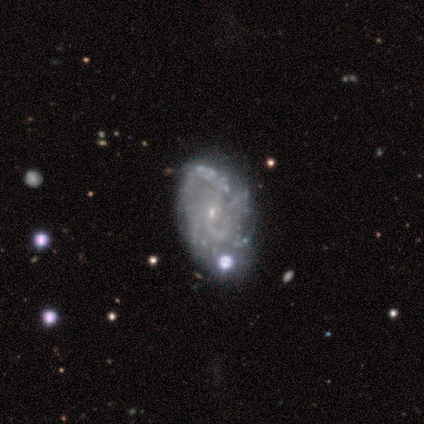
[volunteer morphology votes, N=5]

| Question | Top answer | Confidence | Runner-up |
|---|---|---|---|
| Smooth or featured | featured or disk | 100% | — |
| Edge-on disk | no | 100% | — |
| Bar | no | 60% | weak (40%) |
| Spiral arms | yes | 60% | no (40%) |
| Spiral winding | medium | 67% | tight (33%) |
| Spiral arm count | can't tell | 67% | 3 (33%) |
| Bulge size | small | 80% | moderate (20%) |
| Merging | none | 60% | minor disturbance (20%) |